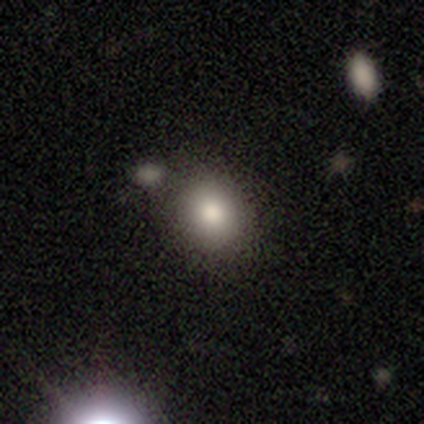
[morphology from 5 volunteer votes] A smooth galaxy with no disk features (100%) that is round (60%). Merging: none (100%).